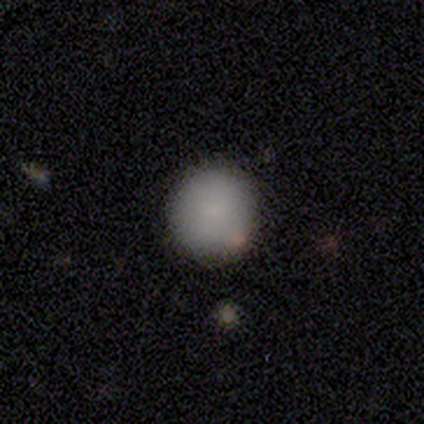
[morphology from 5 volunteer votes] smooth 100%, featured or disk 0%, star or artifact 0%. Down the decision tree: how rounded — round (100%); merging — none (60%).